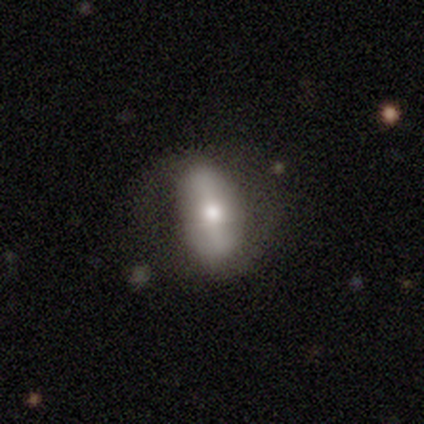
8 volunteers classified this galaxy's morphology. Q: Smooth or featured?
A: smooth (88%); runner-up: featured or disk (12%)
Q: How rounded?
A: in between (86%); runner-up: round (14%)
Q: Merging?
A: none (62%); runner-up: major disturbance (25%)